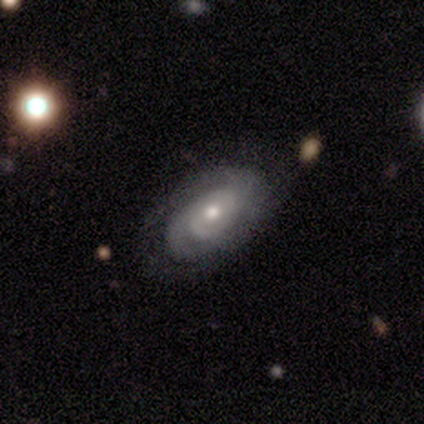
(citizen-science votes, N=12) smooth_or_featured: featured or disk (p=0.58) [alt: smooth p=0.42]
disk_edge_on: no (p=0.86) [alt: yes p=0.14]
bar: no (p=0.50) [alt: weak p=0.33]
has_spiral_arms: yes (p=0.83) [alt: no p=0.17]
spiral_winding: tight (p=0.60) [alt: medium p=0.20]
spiral_arm_count: 2 (p=0.80) [alt: can't tell p=0.20]
bulge_size: moderate (p=0.50) [tied with: small p=0.50]
merging: none (p=0.50) [alt: minor disturbance p=0.25]